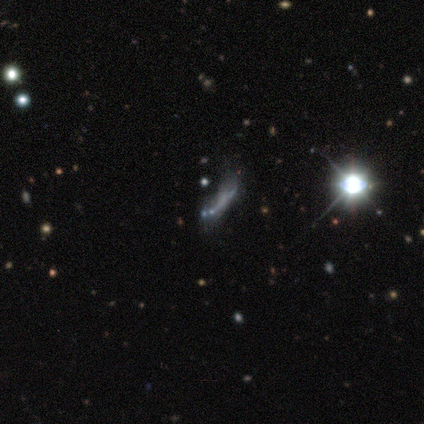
Smooth or featured: featured or disk — 83% (smooth — 17%)
Edge-on disk: no — 100%
Bar: no — 80% (strong — 20%)
Spiral arms: no — 100%
Bulge size: small — 60% (moderate — 20%)
Merging: major disturbance — 50% (minor disturbance — 33%)